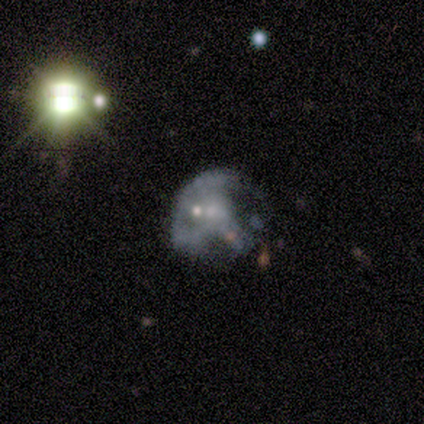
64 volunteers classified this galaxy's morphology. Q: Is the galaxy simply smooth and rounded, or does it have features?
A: featured or disk — 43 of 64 (67%).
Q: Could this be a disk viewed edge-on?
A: no — 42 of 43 (98%).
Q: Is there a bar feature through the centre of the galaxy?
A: no — 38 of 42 (90%).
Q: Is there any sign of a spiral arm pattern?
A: no — 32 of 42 (76%).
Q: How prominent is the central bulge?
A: small — 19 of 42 (45%).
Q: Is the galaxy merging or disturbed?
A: major disturbance — 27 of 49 (55%).